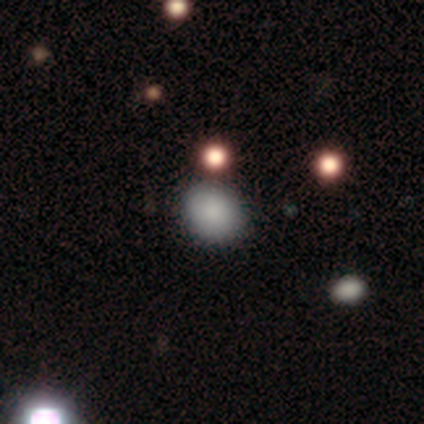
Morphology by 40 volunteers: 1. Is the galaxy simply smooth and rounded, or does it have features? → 85% smooth, 10% star or artifact, 5% featured or disk.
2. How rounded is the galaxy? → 59% round, 41% in between, 0% cigar-shaped.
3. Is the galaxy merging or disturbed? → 86% none, 8% minor disturbance, 3% major disturbance, 3% merger.